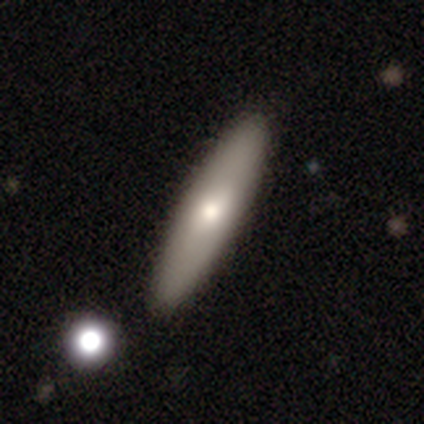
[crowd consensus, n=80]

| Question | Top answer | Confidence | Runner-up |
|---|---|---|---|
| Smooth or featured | smooth | 68% | featured or disk (30%) |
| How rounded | cigar-shaped | 76% | in between (24%) |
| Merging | none | 49% | merger (5%) |